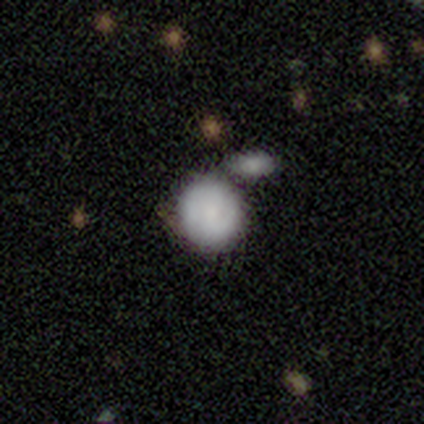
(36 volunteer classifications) Smooth or featured: smooth — 78% (featured or disk — 19%)
How rounded: round — 86% (in between — 14%)
Merging: merger — 57%